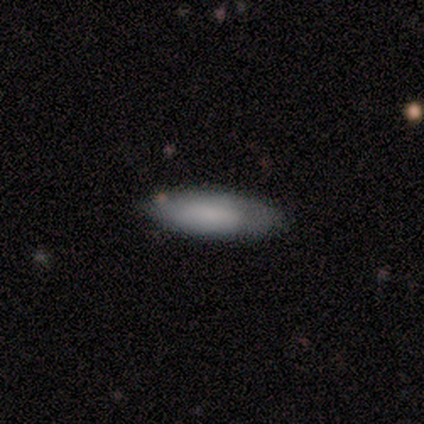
Smooth or featured? 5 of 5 (100%) said smooth. How rounded? 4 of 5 (80%) said in between. Merging? 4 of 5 (80%) said none.